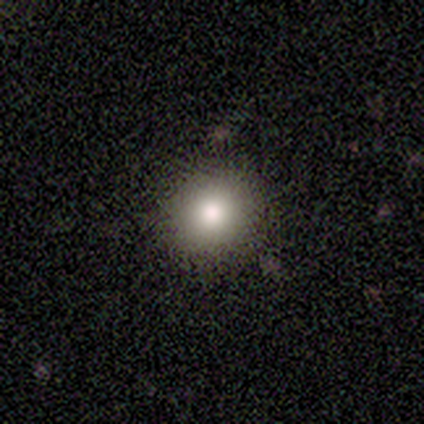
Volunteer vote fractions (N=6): A smooth galaxy with no disk features (100%) that is round (100%). Merging: none (100%).